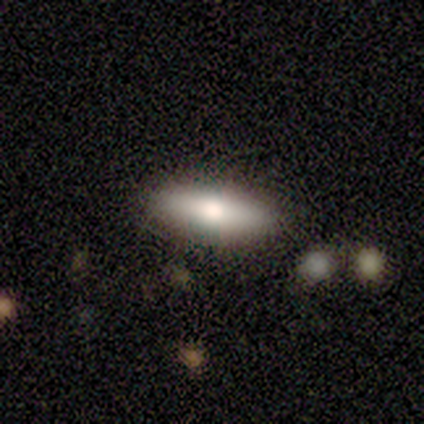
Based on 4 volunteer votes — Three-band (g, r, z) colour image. It shows a smooth galaxy with no disk features (100%) that is in between round and cigar-shaped (50%, tied with cigar-shaped). Merging: none (75%).